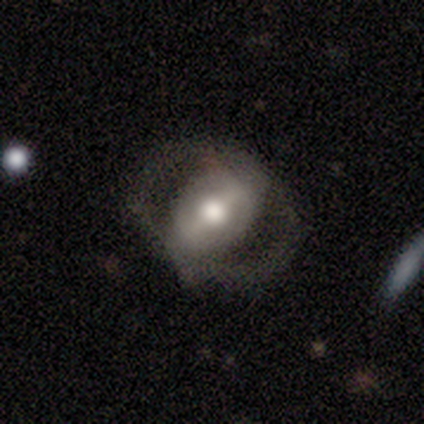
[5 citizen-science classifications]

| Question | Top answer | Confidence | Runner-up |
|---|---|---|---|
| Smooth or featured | featured or disk | 60% | smooth (40%) |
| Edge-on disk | no | 67% | yes (33%) |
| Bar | weak | 100% | — |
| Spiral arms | yes | 50% | tied: no (50%) |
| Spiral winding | tight | 100% | — |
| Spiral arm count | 2 | 100% | — |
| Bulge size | dominant | 50% | tied: small (50%) |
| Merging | none | 60% | minor disturbance (20%) |